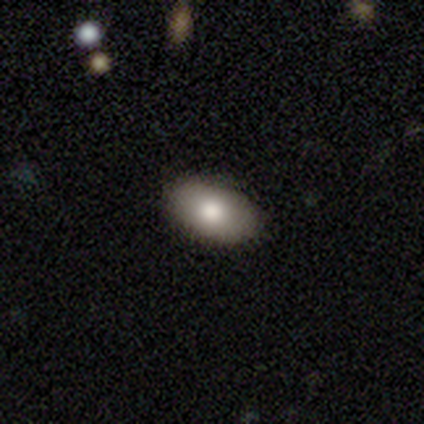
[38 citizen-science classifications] Smooth or featured? 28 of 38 (74%) said smooth. How rounded? 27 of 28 (96%) said in between. Merging? 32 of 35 (91%) said none.